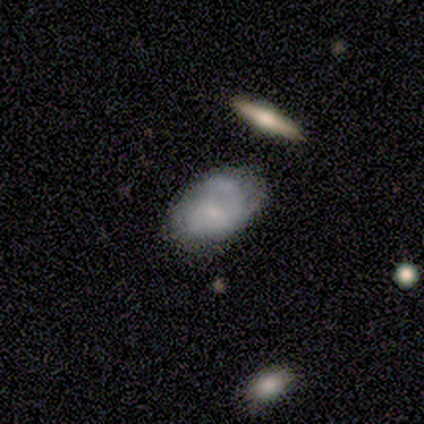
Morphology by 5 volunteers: Smooth or featured?
  - smooth: 60% *
  - featured or disk: 40%
  - star or artifact: 0%
How rounded?
  - in between: 67% *
  - round: 33%
  - cigar-shaped: 0%
Merging?
  - none: 60% *
  - major disturbance: 20%
  - merger: 20%
  - minor disturbance: 0%